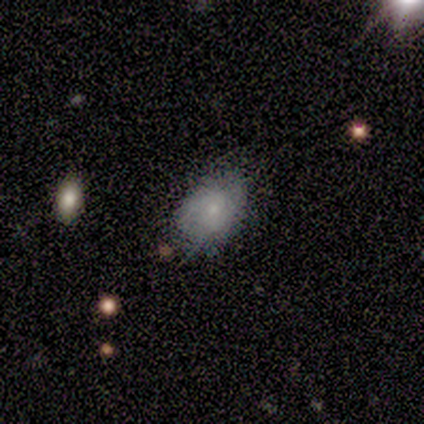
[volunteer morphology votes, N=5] This appears to be a smooth galaxy with no disk features (80%) that is in between round and cigar-shaped (100%). Merging: minor disturbance (60%).